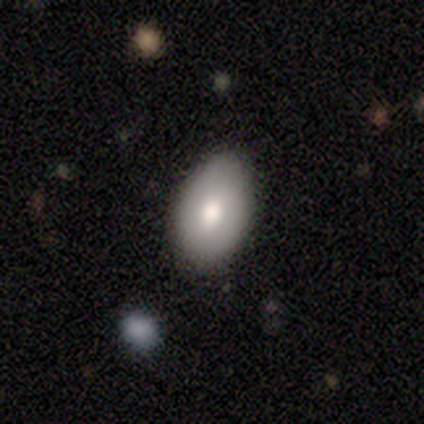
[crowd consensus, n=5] A smooth galaxy with no disk features (100%) that is in between round and cigar-shaped (80%).

Vote fractions:
- Smooth or featured? smooth: 100% / featured or disk: 0% / star or artifact: 0%
- How rounded? in between: 80% / round: 20% / cigar-shaped: 0%
- Merging? none: 100% / minor disturbance: 0% / major disturbance: 0% / merger: 0%